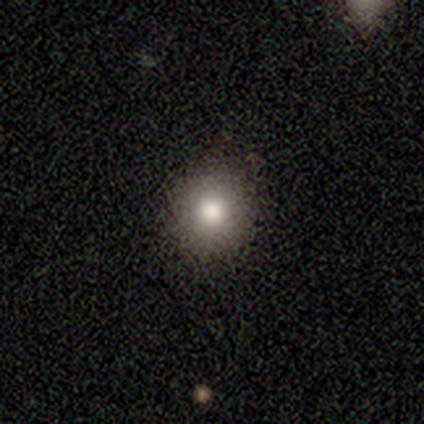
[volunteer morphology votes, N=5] smooth 100%, featured or disk 0%, star or artifact 0%. Down the decision tree: how rounded — round (100%); merging — none (100%).